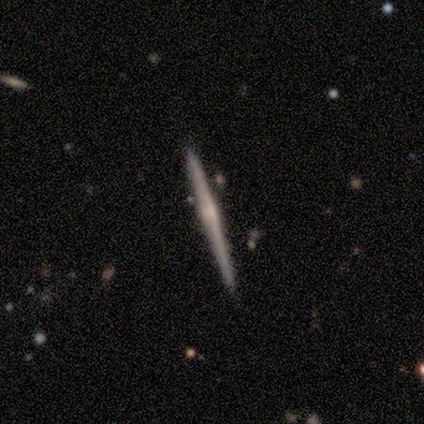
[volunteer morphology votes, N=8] Overall: featured or disk (62%; smooth 25%). Edge-on disk: yes (100%). Edge-on bulge: none (60%; boxy 40%). Merging: none (57%; minor disturbance 43%).